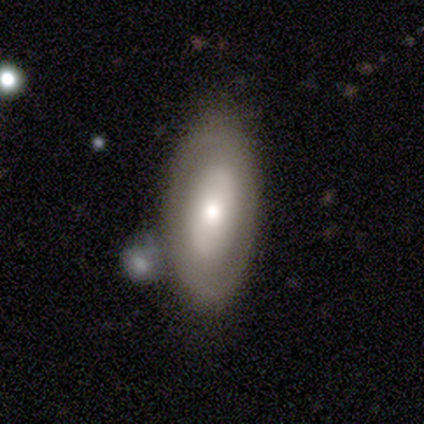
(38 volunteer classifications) Smooth or featured? 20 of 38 (53%) said featured or disk. Edge-on disk? 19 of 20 (95%) said no. Bar? 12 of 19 (63%) said no. Spiral arms? 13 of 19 (68%) said no. Bulge size? 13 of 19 (68%) said moderate. Merging? 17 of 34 (50%) said none.